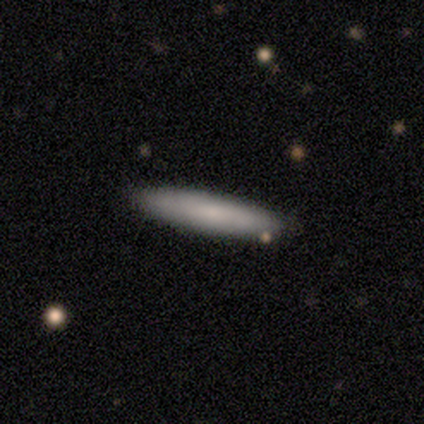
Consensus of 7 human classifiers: A smooth galaxy with no disk features (57%) that is cigar-shaped (75%). Merging: none (86%).